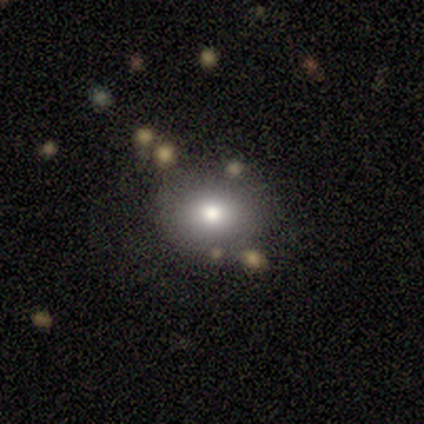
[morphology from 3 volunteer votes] A smooth galaxy with no disk features (67%) that is round (100%). Merging: none (100%).